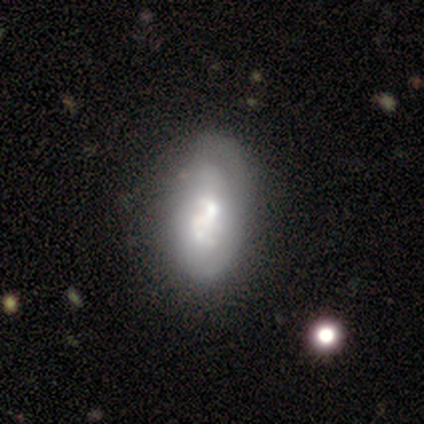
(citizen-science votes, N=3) Morphology: type=featured or disk (100%); edge-on=no (100%); bar=no (67%); spiral arms=yes (67%); winding=tight (50%, tied with medium); arm count=can't tell (100%); bulge=small (67%); merging=none (100%).